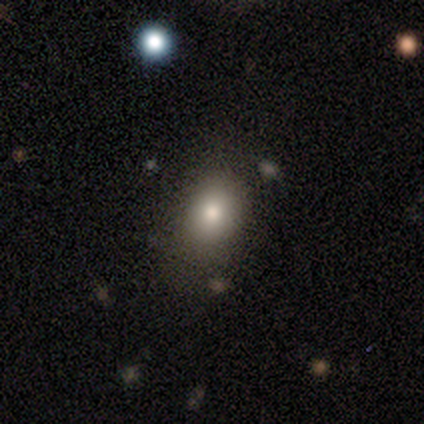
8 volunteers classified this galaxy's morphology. smooth_or_featured: smooth (p=1.00)
how_rounded: in between (p=0.75) [alt: round p=0.25]
merging: none (p=0.62) [alt: minor disturbance p=0.25]